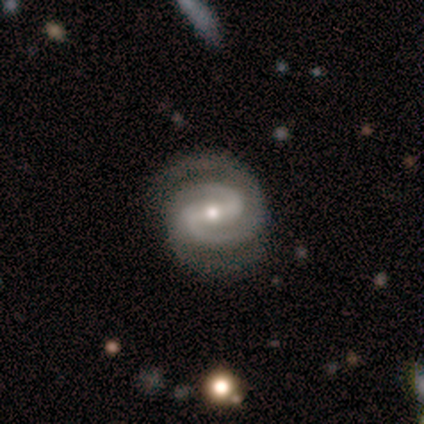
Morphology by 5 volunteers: This is clearly a featured or disk galaxy (100%). It is clearly not viewed edge-on (100%). Bar: marginally weak (40%, tied with no). Spiral arm pattern: clearly yes (100%). Spiral arm count: marginally 2 (40%, tied with 4). Spiral winding: likely tight (60%). Central bulge: marginally moderate (40%, tied with small). Merging: likely minor disturbance (60%).